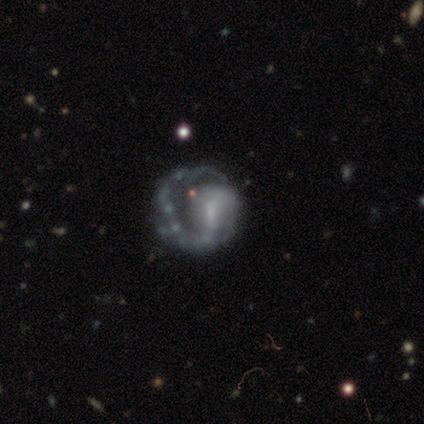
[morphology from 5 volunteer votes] Q: Smooth or featured?
A: featured or disk (100%)
Q: Edge-on disk?
A: no (100%)
Q: Bar?
A: strong (40%); tied with: no (40%)
Q: Spiral arms?
A: yes (80%); runner-up: no (20%)
Q: Spiral winding?
A: loose (75%); runner-up: tight (25%)
Q: Spiral arm count?
A: 2 (75%); runner-up: 1 (25%)
Q: Bulge size?
A: large (40%); tied with: none (40%)
Q: Merging?
A: none (60%); runner-up: major disturbance (40%)